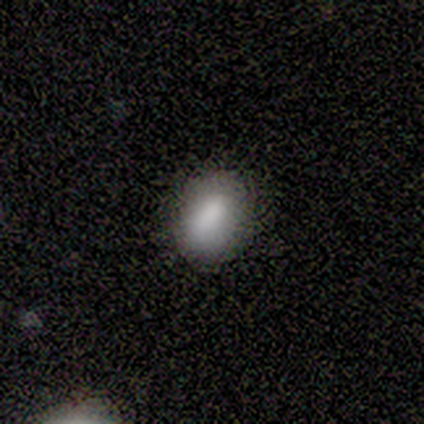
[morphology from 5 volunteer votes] Volunteers were most divided on "how rounded": in between: 60%, round: 40%, cigar-shaped: 0%. More confident: smooth or featured — smooth (100%); merging — none (100%).